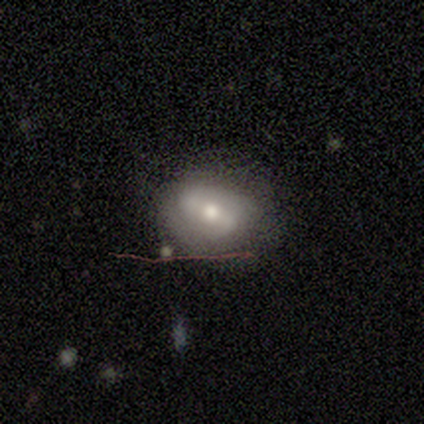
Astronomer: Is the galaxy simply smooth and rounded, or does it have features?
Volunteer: featured or disk — 49% (runner-up: smooth, 36%).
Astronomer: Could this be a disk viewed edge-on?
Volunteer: no — 95%.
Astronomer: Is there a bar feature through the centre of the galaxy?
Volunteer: strong — 33%, tied with weak and no at 33%.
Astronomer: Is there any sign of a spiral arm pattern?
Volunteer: yes — 67%.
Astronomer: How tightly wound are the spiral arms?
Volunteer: loose — 50% (runner-up: tight, 42%).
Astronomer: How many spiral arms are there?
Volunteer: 2 — 100%.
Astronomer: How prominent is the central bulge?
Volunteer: moderate — 83%.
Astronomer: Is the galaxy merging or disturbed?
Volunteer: none — 64%.